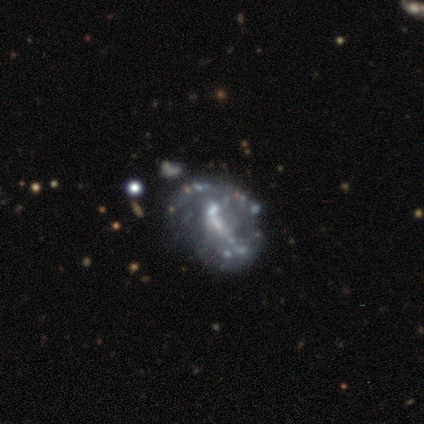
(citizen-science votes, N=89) Overall: featured or disk (80%). Edge-on disk: no (100%). Bar: no (55%; weak 32%). Spiral arms: no (69%; yes 31%). Bulge size: none (38%; small 35%). Merging: none (38%; major disturbance 27%).